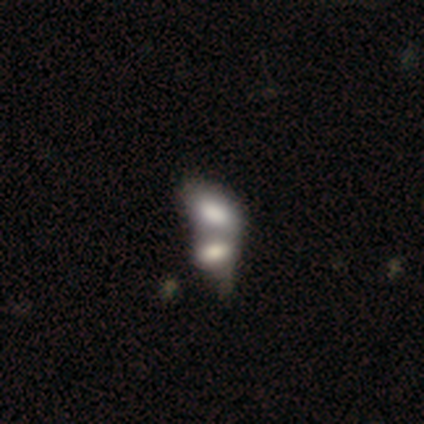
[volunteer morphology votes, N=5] A smooth galaxy with no disk features (60%) that is in between round and cigar-shaped (100%). Merging: merger (50%).